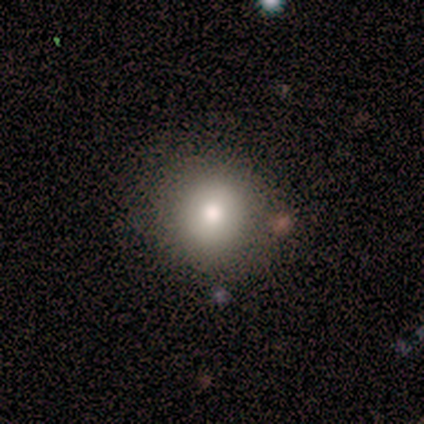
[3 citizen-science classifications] Smooth or featured?
  - smooth: 100% *
  - featured or disk: 0%
  - star or artifact: 0%
How rounded?
  - round: 100% *
  - in between: 0%
  - cigar-shaped: 0%
Merging?
  - none: 100% *
  - minor disturbance: 0%
  - major disturbance: 0%
  - merger: 0%